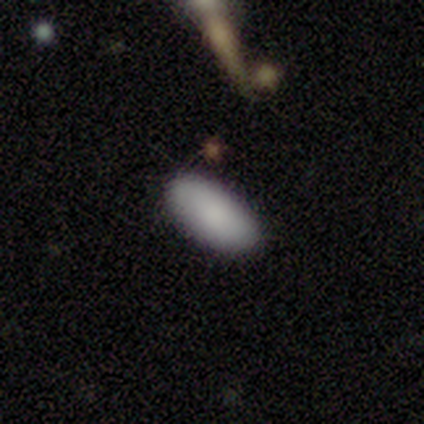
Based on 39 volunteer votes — A smooth galaxy with no disk features (90%) that is in between round and cigar-shaped (89%).

Vote fractions:
- Smooth or featured? smooth: 90% / star or artifact: 8% / featured or disk: 3%
- How rounded? in between: 89% / cigar-shaped: 9% / round: 3%
- Merging? none: 75% / minor disturbance: 22% / merger: 3% / major disturbance: 0%